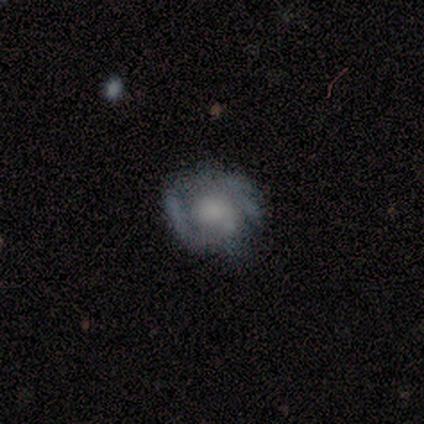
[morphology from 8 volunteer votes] smooth-or-featured: featured or disk: 88% | smooth: 12% | star or artifact: 0%
  disk-edge-on: no: 86% | yes: 14%
    bar: no: 83% | weak: 17% | strong: 0%
    has-spiral-arms: yes: 83% | no: 17%
      spiral-winding: tight: 60% | loose: 40% | medium: 0%
      spiral-arm-count: 2: 80% | 3: 20% | 1: 0% | 4: 0% | more than 4: 0% | can't tell: 0%
    bulge-size: moderate: 50% | large: 17% | small: 17% | none: 17% | dominant: 0%
  merging: none: 62% | minor disturbance: 25% | major disturbance: 12% | merger: 0%